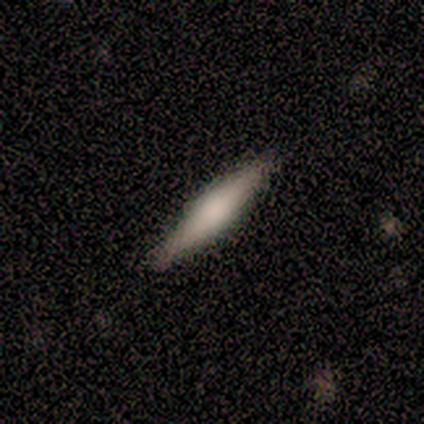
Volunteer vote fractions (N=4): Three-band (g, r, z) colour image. It shows a smooth galaxy with no disk features (100%) that is cigar-shaped (100%). Merging: none (100%).